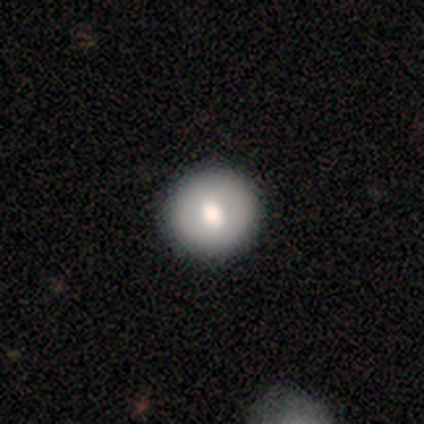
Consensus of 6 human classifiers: Smooth or featured: featured or disk — 67% (smooth — 17%)
Edge-on disk: no — 100%
Bar: weak — 50% (tied with no — 50%)
Spiral arms: no — 100%
Bulge size: moderate — 50% (large — 25%)
Merging: none — 100%